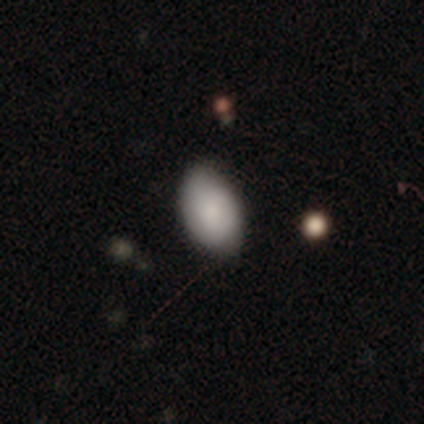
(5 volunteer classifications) Smooth or featured?
  - smooth: 80% *
  - star or artifact: 20%
  - featured or disk: 0%
How rounded?
  - in between: 100% *
  - round: 0%
  - cigar-shaped: 0%
Merging?
  - none: 100% *
  - minor disturbance: 0%
  - major disturbance: 0%
  - merger: 0%